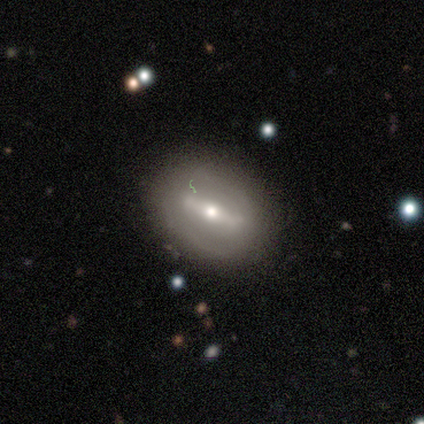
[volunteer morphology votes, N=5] This appears to be a featured or disk galaxy (60%) with a strong bar (100%), 2 (100%) medium (100%) spiral arms (50%, tied with no) and a moderate central bulge (50%, tied with small). Merging: none (100%).